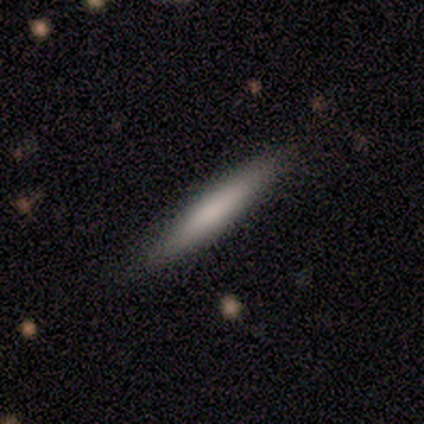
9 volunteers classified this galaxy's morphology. Overall: smooth (67%). How rounded: cigar-shaped (100%). Merging: none (88%).